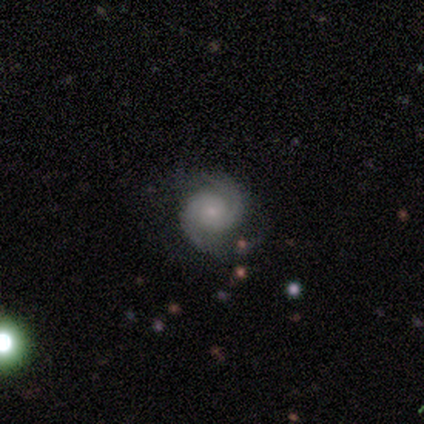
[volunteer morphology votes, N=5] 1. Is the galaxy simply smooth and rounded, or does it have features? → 100% featured or disk, 0% smooth, 0% star or artifact.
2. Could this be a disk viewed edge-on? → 100% no, 0% yes.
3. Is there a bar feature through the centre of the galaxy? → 100% no, 0% strong, 0% weak.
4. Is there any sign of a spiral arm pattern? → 100% yes, 0% no.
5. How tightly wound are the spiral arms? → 100% tight, 0% medium, 0% loose.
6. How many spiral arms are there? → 80% 2, 20% 3, 0% 1, 0% 4, 0% more than 4, 0% can't tell.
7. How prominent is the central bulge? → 80% small, 20% large, 0% dominant, 0% moderate, 0% none.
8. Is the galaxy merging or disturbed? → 100% none, 0% minor disturbance, 0% major disturbance, 0% merger.